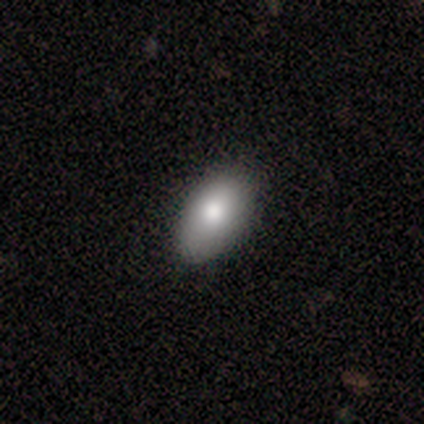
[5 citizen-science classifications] A smooth galaxy with no disk features (80%) that is in between round and cigar-shaped (100%).

Vote fractions:
- Smooth or featured? smooth: 80% / featured or disk: 20% / star or artifact: 0%
- How rounded? in between: 100% / round: 0% / cigar-shaped: 0%
- Merging? none: 100% / minor disturbance: 0% / major disturbance: 0% / merger: 0%